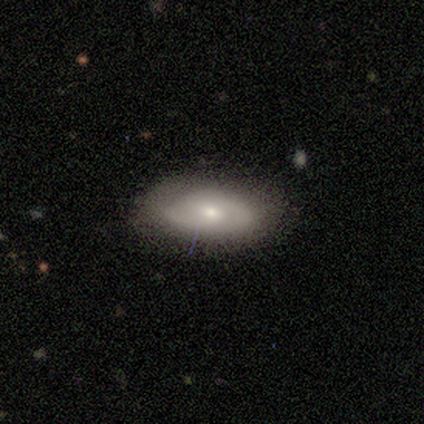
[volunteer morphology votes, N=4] featured or disk 75%, smooth 25%, star or artifact 0%. Down the decision tree: edge-on disk — no (100%); bar — strong (33%, tied with weak and no); spiral arms — yes (67%); spiral arm count — 2 (100%); spiral winding — tight (50%, tied with medium); bulge size — small (100%); merging — none (100%).